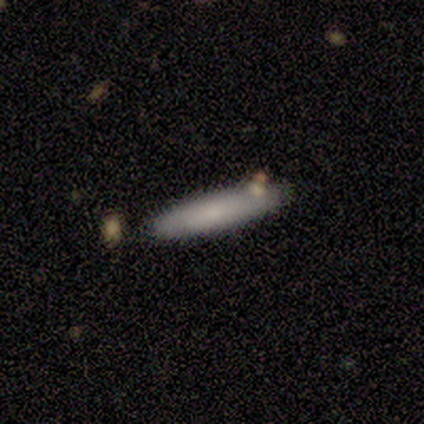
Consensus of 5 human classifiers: Morphology: type=smooth (100%); roundness=cigar-shaped (100%); merging=none (60%).